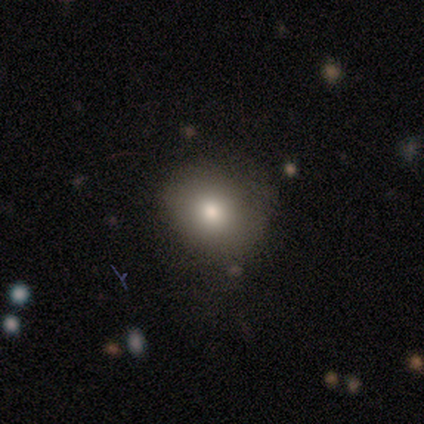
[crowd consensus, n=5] Smooth or featured: smooth — 80% (star or artifact — 20%)
How rounded: round — 75% (in between — 25%)
Merging: none — 50% (minor disturbance — 25%)